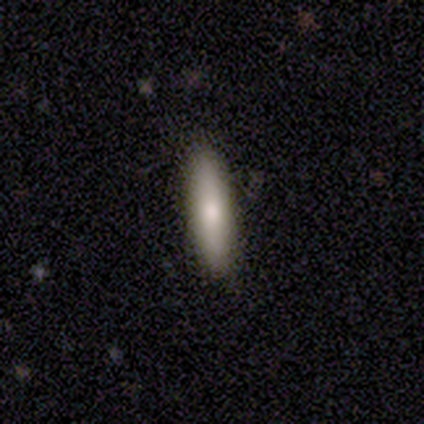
A smooth galaxy with no disk features (74%) that is cigar-shaped (86%).

Vote fractions:
- Smooth or featured? smooth: 74% / featured or disk: 21% / star or artifact: 5%
- How rounded? cigar-shaped: 86% / in between: 14% / round: 0%
- Merging? none: 89% / minor disturbance: 5% / major disturbance: 5% / merger: 0%